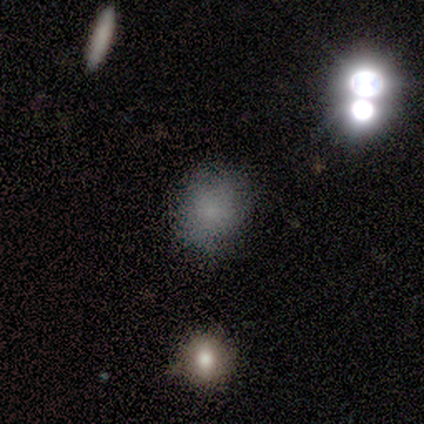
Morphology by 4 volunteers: A smooth galaxy with no disk features (100%) that is round (100%).

Vote fractions:
- Smooth or featured? smooth: 100% / featured or disk: 0% / star or artifact: 0%
- How rounded? round: 100% / in between: 0% / cigar-shaped: 0%
- Merging? none: 75% / merger: 25% / minor disturbance: 0% / major disturbance: 0%